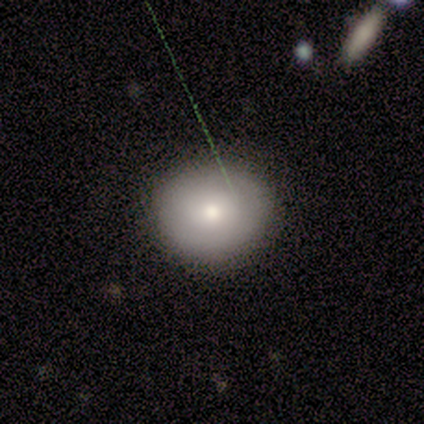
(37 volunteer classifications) A smooth galaxy with no disk features (84%) that is round (77%).

Vote fractions:
- Smooth or featured? smooth: 84% / star or artifact: 11% / featured or disk: 5%
- How rounded? round: 77% / in between: 23% / cigar-shaped: 0%
- Merging? none: 79% / minor disturbance: 15% / major disturbance: 6% / merger: 0%